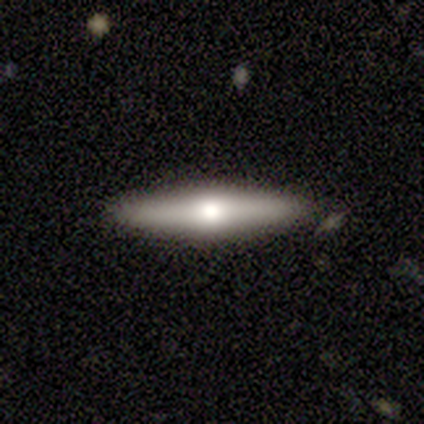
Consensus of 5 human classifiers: Q: Smooth or featured?
A: smooth (80%); runner-up: featured or disk (20%)
Q: How rounded?
A: cigar-shaped (100%)
Q: Merging?
A: none (100%)